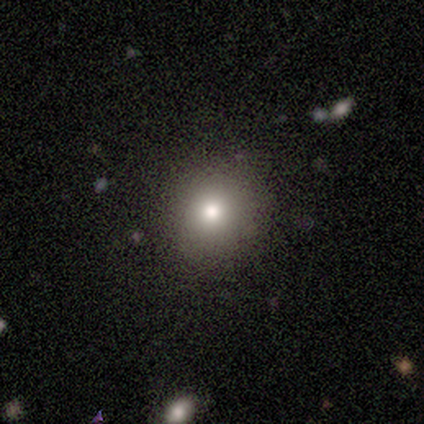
smooth_or_featured: smooth (p=0.80) [alt: featured or disk p=0.13]
how_rounded: round (p=0.75) [alt: in between p=0.17]
merging: none (p=0.71) [alt: minor disturbance p=0.29]